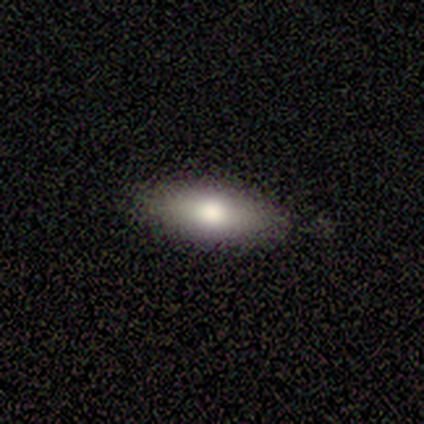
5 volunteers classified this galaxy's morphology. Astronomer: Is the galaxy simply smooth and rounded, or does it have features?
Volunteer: smooth — 60%.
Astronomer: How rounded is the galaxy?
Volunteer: in between — 100%.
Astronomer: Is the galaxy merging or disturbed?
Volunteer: none — 100%.